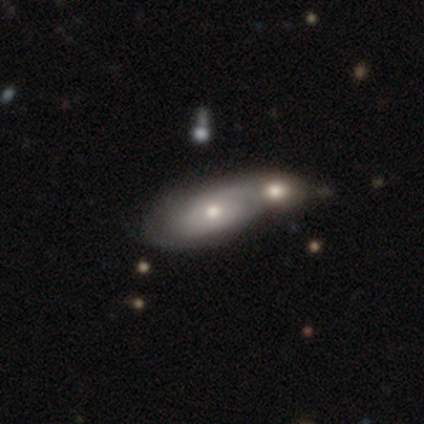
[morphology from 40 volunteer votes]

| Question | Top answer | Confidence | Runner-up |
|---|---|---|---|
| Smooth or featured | featured or disk | 57% | smooth (38%) |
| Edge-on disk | no | 96% | yes (4%) |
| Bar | no | 95% | strong (5%) |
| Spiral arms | yes | 59% | no (41%) |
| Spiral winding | tight | 38% | tied: loose (38%) |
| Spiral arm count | can't tell | 69% | 2 (23%) |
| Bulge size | moderate | 64% | small (36%) |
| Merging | merger | 61% | — |